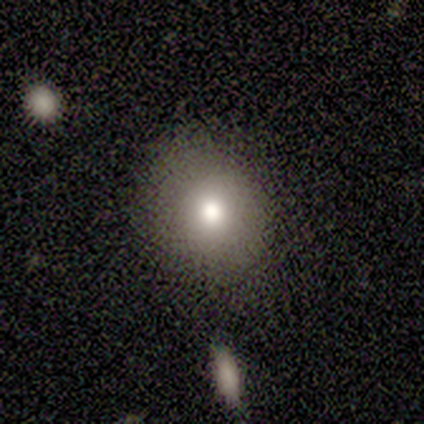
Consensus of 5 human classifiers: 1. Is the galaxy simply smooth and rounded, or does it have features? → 60% smooth, 40% star or artifact, 0% featured or disk.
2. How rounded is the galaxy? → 67% round, 33% in between, 0% cigar-shaped.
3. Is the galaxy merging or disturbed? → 33% none (tied), 33% minor disturbance (tied), 33% major disturbance (tied), 0% merger.